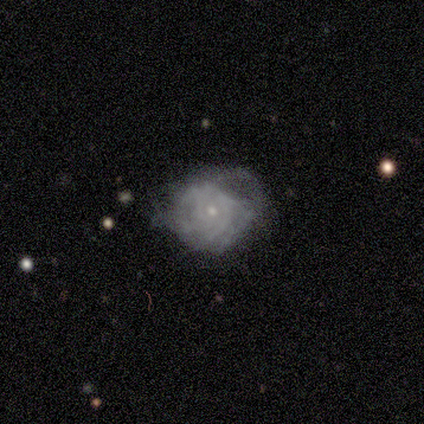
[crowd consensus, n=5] This appears to be a smooth galaxy with no disk features (60%) that is round (67%). Merging: none (40%, tied with minor disturbance).